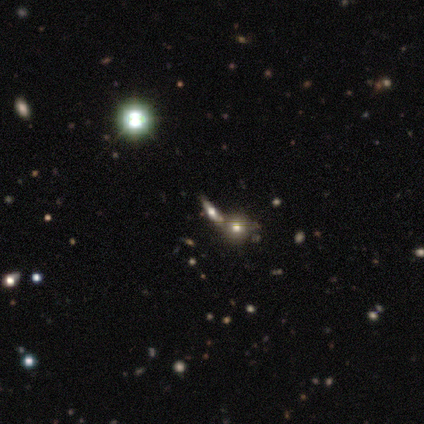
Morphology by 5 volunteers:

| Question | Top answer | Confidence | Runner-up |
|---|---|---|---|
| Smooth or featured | featured or disk | 80% | smooth (20%) |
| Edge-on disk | yes | 50% | tied: no (50%) |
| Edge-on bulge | rounded | 100% | — |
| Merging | none | 60% | minor disturbance (20%) |